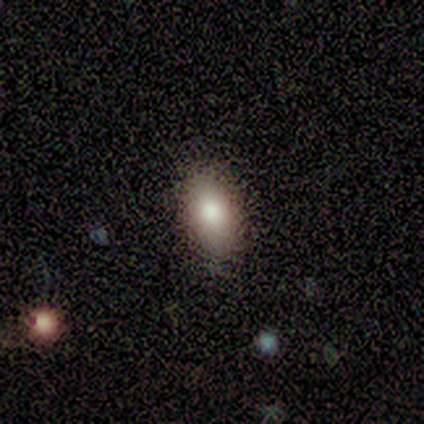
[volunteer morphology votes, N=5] Volunteers were most divided on "smooth or featured": smooth: 60%, featured or disk: 40%, star or artifact: 0%. More confident: how rounded — in between (67%); merging — none (60%).